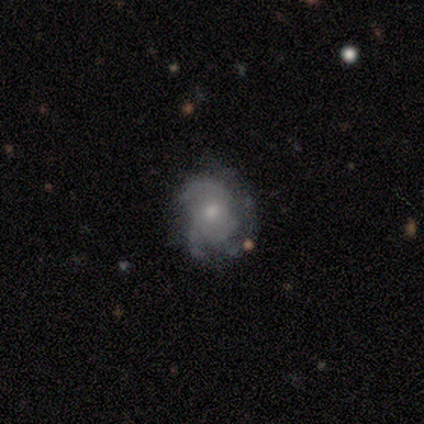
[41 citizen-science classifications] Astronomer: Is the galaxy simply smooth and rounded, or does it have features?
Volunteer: featured or disk — 83%.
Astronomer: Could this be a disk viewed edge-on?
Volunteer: no — 100%.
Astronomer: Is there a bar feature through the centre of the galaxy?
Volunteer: no — 94%.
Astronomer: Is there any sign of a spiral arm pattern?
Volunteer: yes — 88%.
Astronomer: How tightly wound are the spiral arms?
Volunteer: tight — 57%.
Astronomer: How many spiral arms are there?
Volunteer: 3 — 47% (runner-up: can't tell, 33%).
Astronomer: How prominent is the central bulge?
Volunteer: moderate — 74%.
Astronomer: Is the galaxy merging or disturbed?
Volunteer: none — 61%.